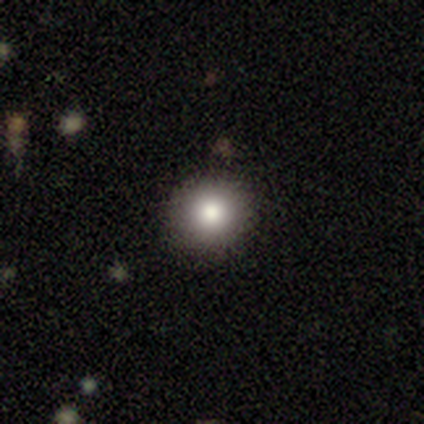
This is clearly a smooth galaxy (80%). How rounded: clearly round (100%). Merging: clearly none (100%).